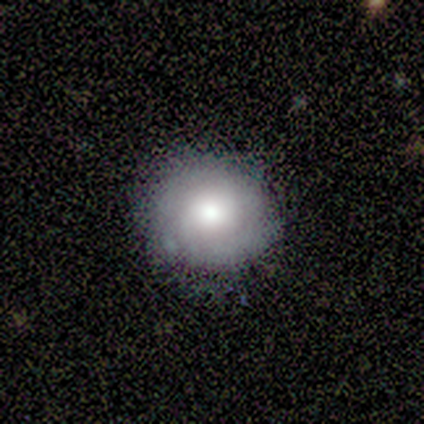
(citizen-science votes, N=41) Morphology: type=smooth (51%); roundness=round (95%); merging=none (72%).